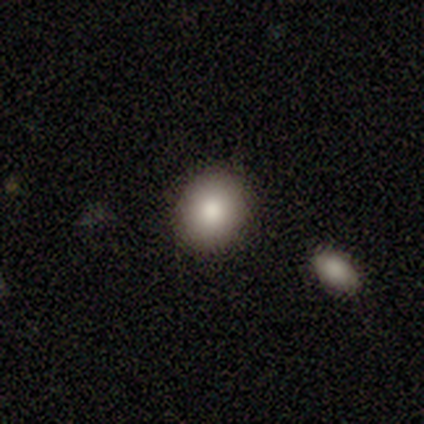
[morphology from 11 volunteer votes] A smooth galaxy with no disk features (100%) that is round (64%). Merging: none (100%).